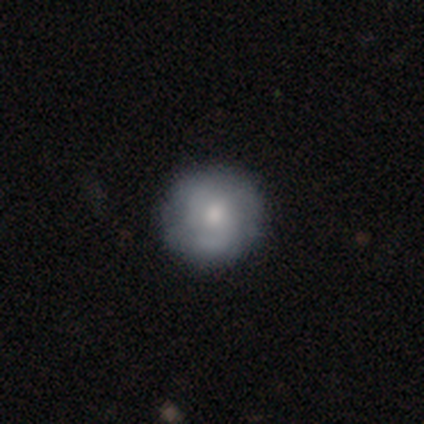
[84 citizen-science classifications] Smooth or featured?
  - smooth: 50% *
  - featured or disk: 42%
  - star or artifact: 8%
How rounded?
  - round: 100% *
  - in between: 0%
  - cigar-shaped: 0%
Merging?
  - none: 82% *
  - minor disturbance: 16%
  - major disturbance: 1%
  - merger: 1%